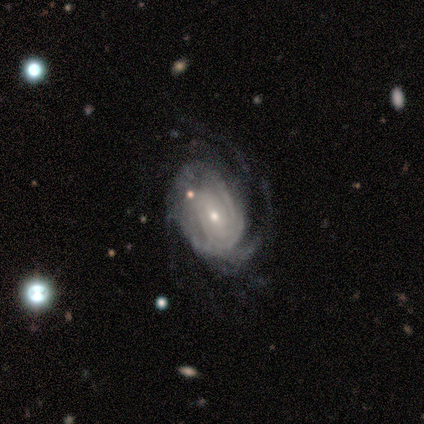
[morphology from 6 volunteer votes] A featured or disk galaxy (100%) with no bar (67%), tight (67%) spiral arms (100%) and a small central bulge (83%). Merging: minor disturbance (67%).